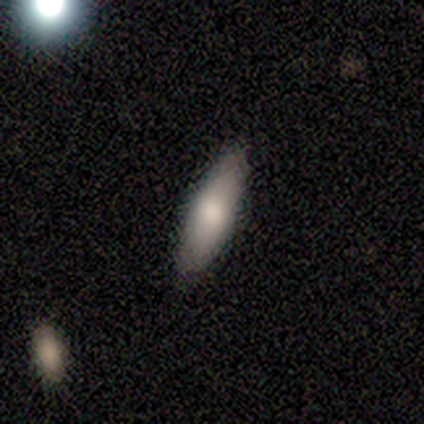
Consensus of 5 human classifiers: This is clearly a smooth galaxy (80%). How rounded: likely cigar-shaped (75%). Merging: clearly none (100%).